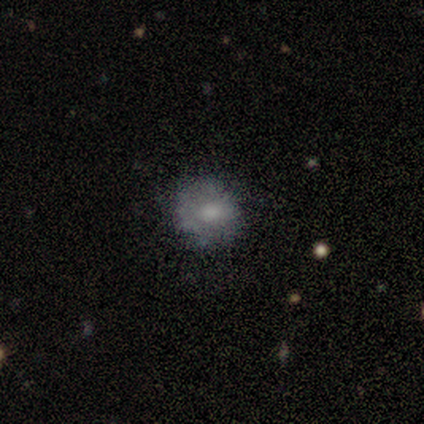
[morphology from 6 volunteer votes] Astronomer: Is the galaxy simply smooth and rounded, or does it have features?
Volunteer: smooth — 50%, tied with featured or disk at 50%.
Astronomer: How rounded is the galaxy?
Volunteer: round — 100%.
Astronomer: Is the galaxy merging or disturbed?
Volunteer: none — 67%.